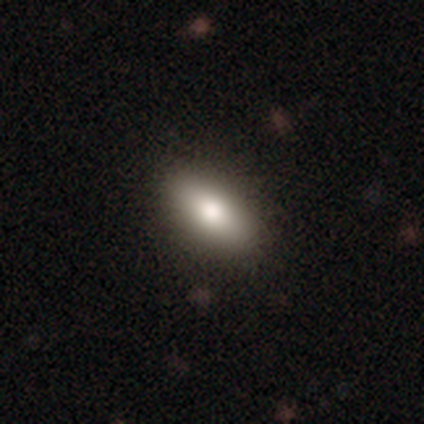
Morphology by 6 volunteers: This appears to be a smooth galaxy with no disk features (83%) that is in between round and cigar-shaped (80%). Merging: none (40%, tied with major disturbance).